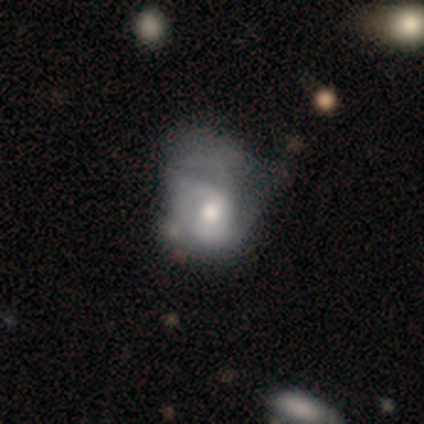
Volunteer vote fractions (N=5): Morphology: type=featured or disk (80%); edge-on=no (100%); bar=no (50%); spiral arms=yes (75%); winding=medium (67%); arm count=2 (67%); bulge=moderate (100%); merging=major disturbance (60%).